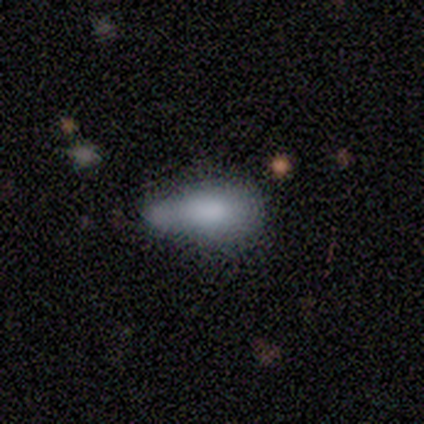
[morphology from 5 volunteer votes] This is clearly a smooth galaxy (80%). How rounded: clearly in between (100%). Merging: marginally none (40%, tied with merger).